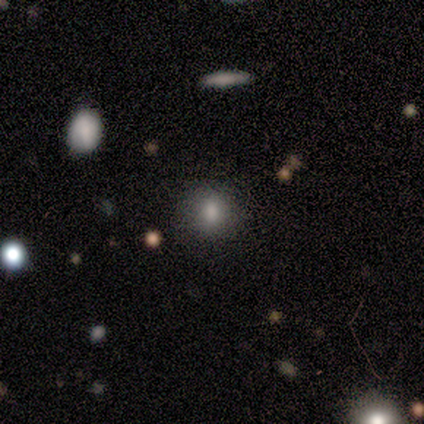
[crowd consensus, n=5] A smooth galaxy with no disk features (100%) that is round (80%).

Vote fractions:
- Smooth or featured? smooth: 100% / featured or disk: 0% / star or artifact: 0%
- How rounded? round: 80% / in between: 20% / cigar-shaped: 0%
- Merging? none: 80% / minor disturbance: 20% / major disturbance: 0% / merger: 0%